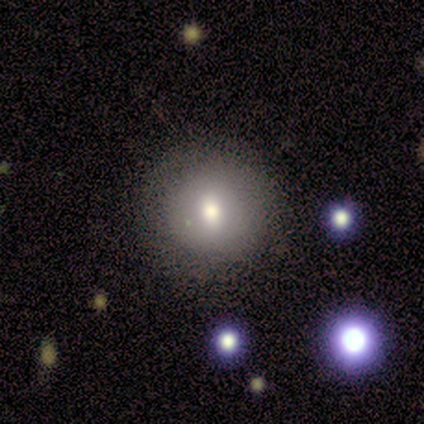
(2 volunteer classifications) Smooth or featured?
  - smooth: 50% * (tied)
  - star or artifact: 50% * (tied)
  - featured or disk: 0%
How rounded?
  - round: 100% *
  - in between: 0%
  - cigar-shaped: 0%
Merging?
  - none: 100% *
  - minor disturbance: 0%
  - major disturbance: 0%
  - merger: 0%